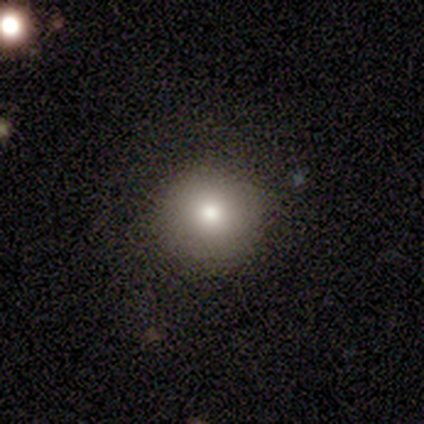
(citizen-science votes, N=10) smooth 90%, star or artifact 10%, featured or disk 0%. Down the decision tree: how rounded — round (89%); merging — none (100%).